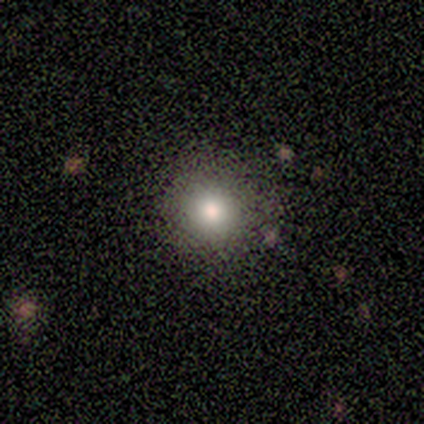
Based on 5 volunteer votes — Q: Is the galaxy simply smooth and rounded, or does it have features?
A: smooth — 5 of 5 (100%).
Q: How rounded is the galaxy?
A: round — 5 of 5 (100%).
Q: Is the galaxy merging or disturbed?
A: none — 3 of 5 (60%).